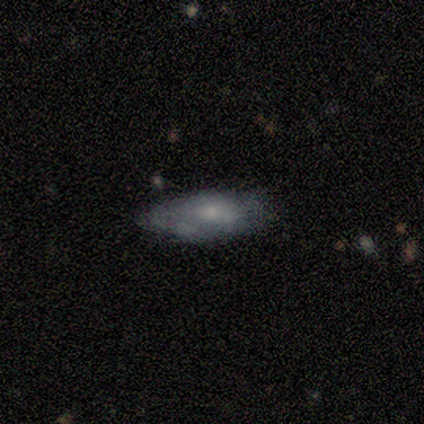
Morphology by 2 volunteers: smooth 50% (tied), featured or disk 50% (tied), star or artifact 0%. Down the decision tree: how rounded — in between (100%); merging — none (50%, tied with minor disturbance).